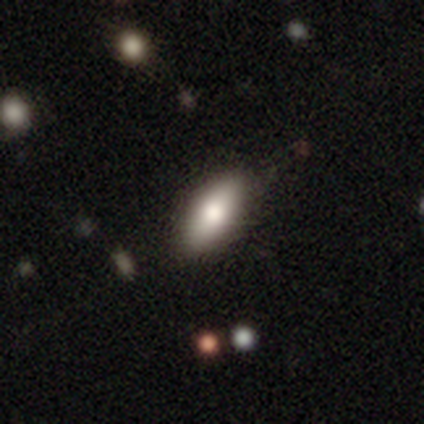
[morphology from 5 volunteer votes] Smooth or featured: smooth — 80% (featured or disk — 20%)
How rounded: in between — 100%
Merging: none — 100%